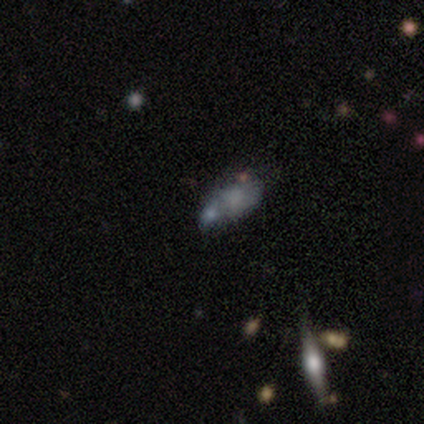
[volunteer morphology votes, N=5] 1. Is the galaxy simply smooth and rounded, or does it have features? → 40% smooth (tied), 40% featured or disk (tied), 20% star or artifact.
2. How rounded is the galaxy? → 100% in between, 0% round, 0% cigar-shaped.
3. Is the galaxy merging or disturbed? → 50% none, 25% minor disturbance, 25% major disturbance, 0% merger.